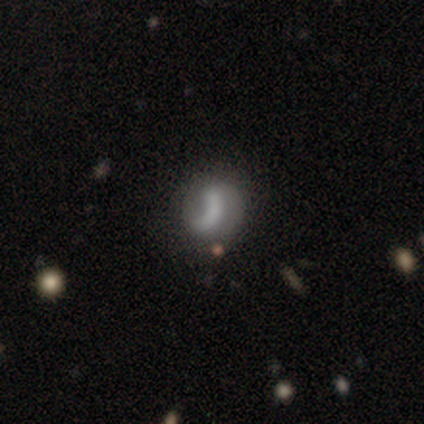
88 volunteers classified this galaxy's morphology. A smooth galaxy with no disk features (47%) that is round (63%). Merging: none (42%).